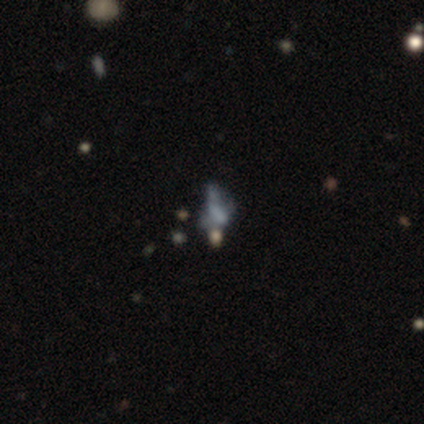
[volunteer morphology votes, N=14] Smooth or featured?
  - featured or disk: 64% *
  - star or artifact: 29%
  - smooth: 7%
Edge-on disk?
  - no: 89% *
  - yes: 11%
Bar?
  - no: 75% *
  - weak: 25%
  - strong: 0%
Spiral arms?
  - no: 100% *
  - yes: 0%
Bulge size?
  - none: 50% *
  - moderate: 25%
  - small: 25%
  - dominant: 0%
  - large: 0%
Merging?
  - none: 50% *
  - major disturbance: 20%
  - merger: 20%
  - minor disturbance: 10%